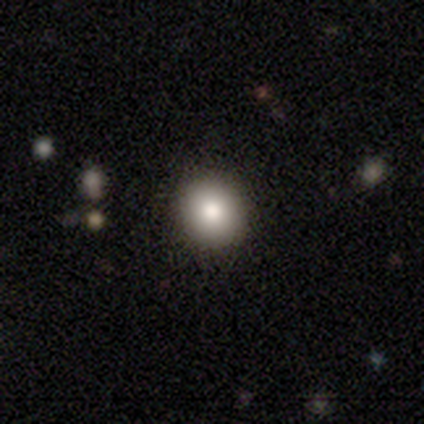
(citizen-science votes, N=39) Q: Smooth or featured?
A: smooth (79%); runner-up: featured or disk (10%)
Q: How rounded?
A: round (94%); runner-up: in between (6%)
Q: Merging?
A: none (74%); runner-up: minor disturbance (6%)